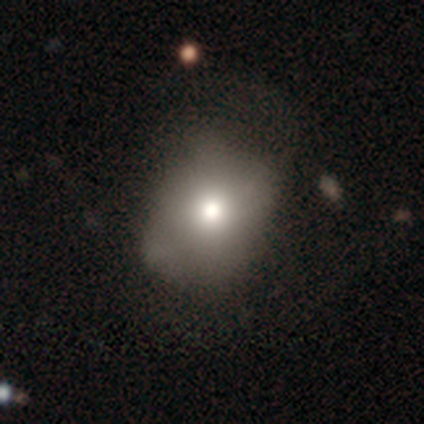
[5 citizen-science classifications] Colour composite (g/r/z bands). It shows a smooth galaxy with no disk features (80%) that is round (100%). Merging: none (75%).